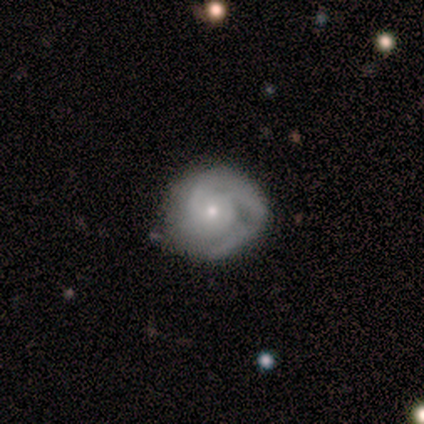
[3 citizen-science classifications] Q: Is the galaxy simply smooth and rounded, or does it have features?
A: featured or disk — 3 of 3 (100%).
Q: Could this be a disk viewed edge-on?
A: no — 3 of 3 (100%).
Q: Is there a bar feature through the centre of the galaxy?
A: no — 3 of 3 (100%).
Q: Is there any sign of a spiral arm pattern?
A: yes — 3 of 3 (100%).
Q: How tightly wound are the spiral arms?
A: medium — 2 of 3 (67%).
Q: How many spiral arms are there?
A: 2 — 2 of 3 (67%).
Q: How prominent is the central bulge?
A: small — 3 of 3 (100%).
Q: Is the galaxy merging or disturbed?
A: minor disturbance — 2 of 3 (67%).